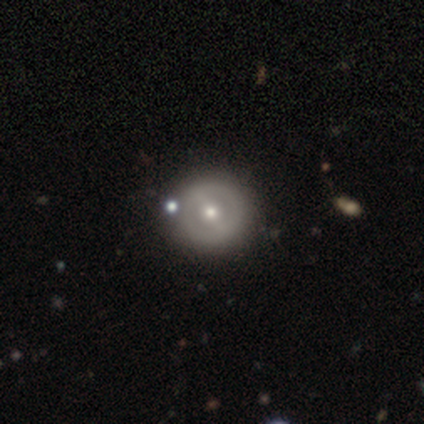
Smooth or featured?
  - featured or disk: 56% *
  - smooth: 38%
  - star or artifact: 5%
Edge-on disk?
  - no: 100% *
  - yes: 0%
Bar?
  - strong: 45% *
  - weak: 41%
  - no: 14%
Spiral arms?
  - no: 68% *
  - yes: 32%
Bulge size?
  - moderate: 59% *
  - small: 36%
  - large: 5%
  - dominant: 0%
  - none: 0%
Merging?
  - none: 86% *
  - minor disturbance: 8%
  - merger: 5%
  - major disturbance: 0%